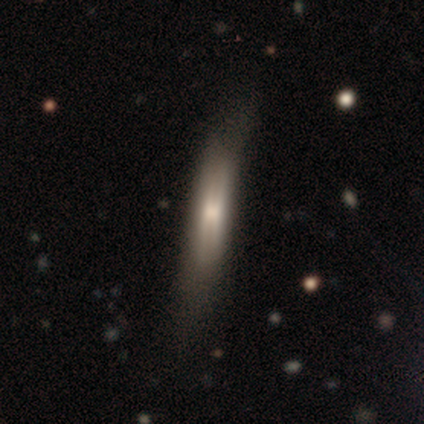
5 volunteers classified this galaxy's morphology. Smooth or featured?
  - smooth: 60% *
  - featured or disk: 40%
  - star or artifact: 0%
How rounded?
  - cigar-shaped: 100% *
  - round: 0%
  - in between: 0%
Merging?
  - minor disturbance: 40% * (tied)
  - major disturbance: 40% * (tied)
  - none: 20%
  - merger: 0%